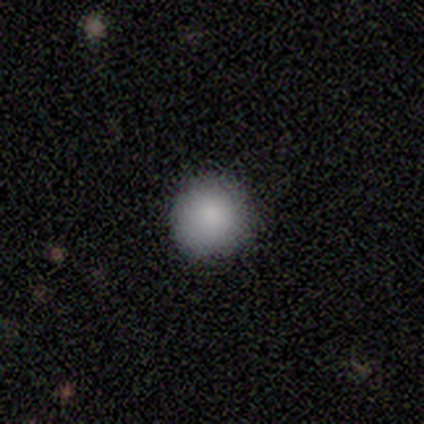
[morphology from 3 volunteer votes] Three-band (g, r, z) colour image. It shows a smooth galaxy with no disk features (100%) that is round (100%). Merging: none (67%).